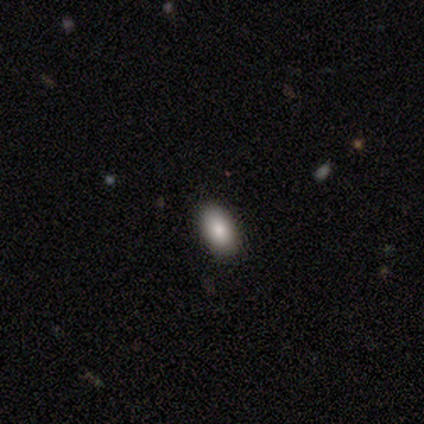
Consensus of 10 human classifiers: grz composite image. It shows a smooth galaxy with no disk features (90%) that is in between round and cigar-shaped (78%). Merging: none (100%).